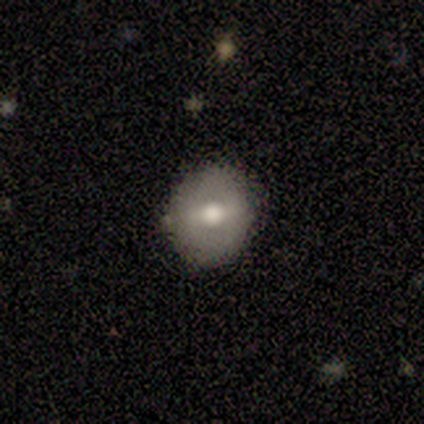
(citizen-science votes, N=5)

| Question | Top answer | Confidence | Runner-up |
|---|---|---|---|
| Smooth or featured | smooth | 60% | featured or disk (40%) |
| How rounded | round | 100% | — |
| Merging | none | 60% | minor disturbance (20%) |